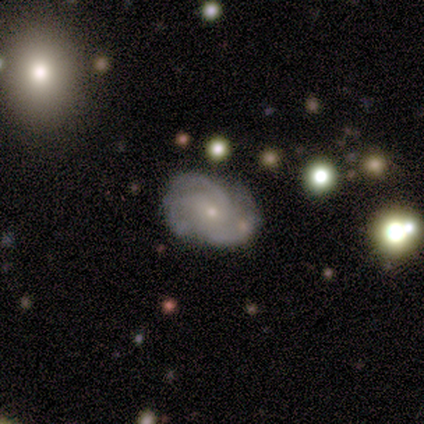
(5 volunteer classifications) smooth-or-featured: featured or disk: 100% | smooth: 0% | star or artifact: 0%
  disk-edge-on: no: 80% | yes: 20%
    bar: no: 75% | weak: 25% | strong: 0%
    has-spiral-arms: yes: 75% | no: 25%
      spiral-winding: medium: 67% | tight: 33% | loose: 0%
      spiral-arm-count: 3: 67% | 2: 33% | 1: 0% | 4: 0% | more than 4: 0% | can't tell: 0%
    bulge-size: small: 75% | moderate: 25% | dominant: 0% | large: 0% | none: 0%
  merging: none: 40% (tied) | minor disturbance: 40% (tied) | merger: 20% | major disturbance: 0%